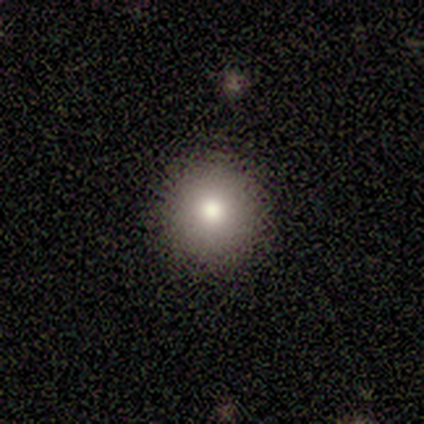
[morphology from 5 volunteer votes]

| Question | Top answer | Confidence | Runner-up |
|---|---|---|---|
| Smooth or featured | smooth | 80% | star or artifact (20%) |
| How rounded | round | 100% | — |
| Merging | none | 100% | — |